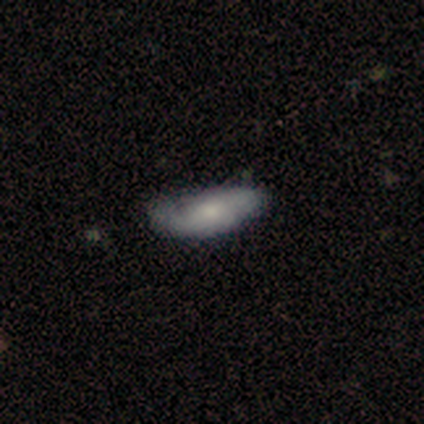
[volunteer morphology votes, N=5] Smooth or featured: featured or disk — 60% (smooth — 20%)
Edge-on disk: no — 67% (yes — 33%)
Bar: no — 100%
Spiral arms: yes — 50% (tied with no — 50%)
Spiral winding: medium — 100%
Spiral arm count: 2 — 100%
Bulge size: moderate — 50% (tied with small — 50%)
Merging: none — 75% (minor disturbance — 25%)